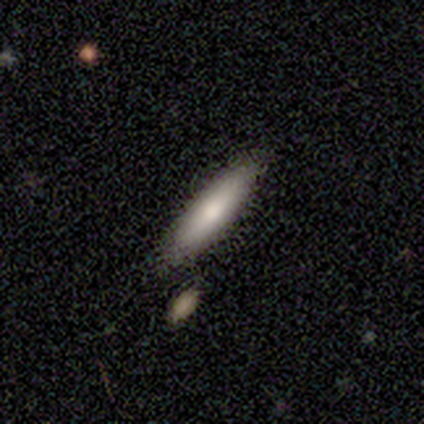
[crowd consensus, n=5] Smooth or featured?
  - smooth: 60% *
  - featured or disk: 40%
  - star or artifact: 0%
How rounded?
  - cigar-shaped: 67% *
  - in between: 33%
  - round: 0%
Merging?
  - none: 100% *
  - minor disturbance: 0%
  - major disturbance: 0%
  - merger: 0%